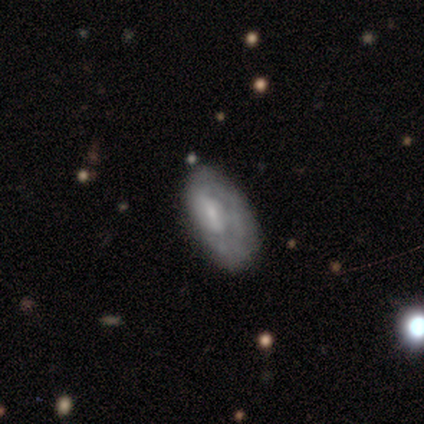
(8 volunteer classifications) Overall: featured or disk (62%; smooth 38%). Edge-on disk: no (80%). Bar: weak (50%, tied with no). Spiral arms: yes (50%, tied with no). Spiral arm count: 1 (100%). Spiral winding: tight (50%, tied with medium). Bulge size: moderate (50%; small 25%). Merging: none (50%; minor disturbance 25%).